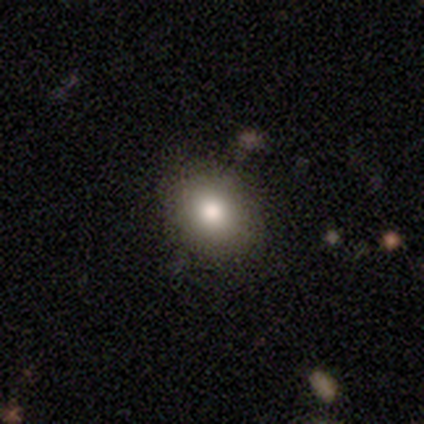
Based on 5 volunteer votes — This is clearly a smooth galaxy (100%). How rounded: clearly in between (80%). Merging: clearly none (80%).